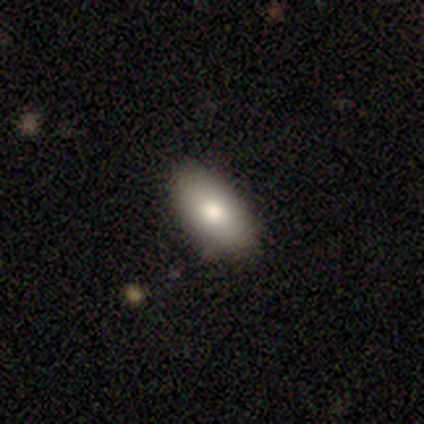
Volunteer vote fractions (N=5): Q: Smooth or featured?
A: smooth (100%)
Q: How rounded?
A: in between (100%)
Q: Merging?
A: none (100%)